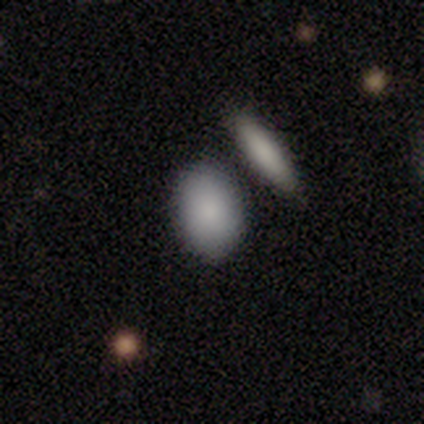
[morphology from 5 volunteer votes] smooth 80%, featured or disk 20%, star or artifact 0%. Down the decision tree: how rounded — in between (75%); merging — none (80%).